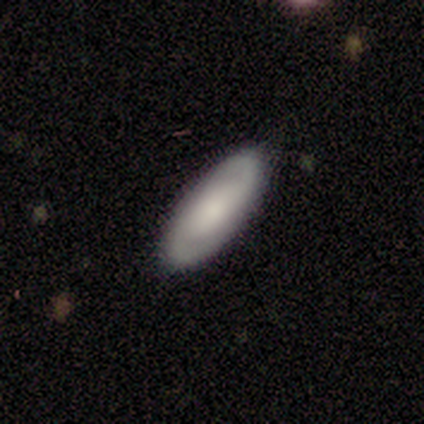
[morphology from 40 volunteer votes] type=featured or disk (55%); edge-on=no (95%); bar=no (52%); spiral arms=yes (76%); winding=medium (62%); arm count=2 (88%); bulge=large (33%); merging=none (97%).